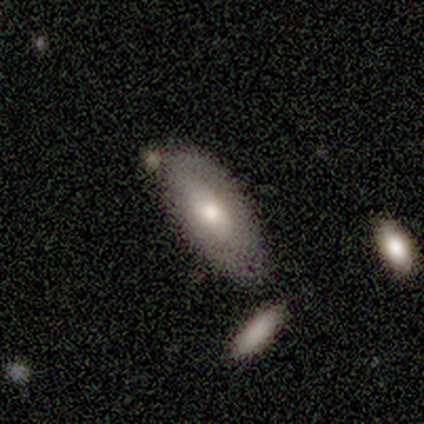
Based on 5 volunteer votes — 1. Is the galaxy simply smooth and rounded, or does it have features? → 60% smooth, 40% featured or disk, 0% star or artifact.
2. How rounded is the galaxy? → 67% in between, 33% cigar-shaped, 0% round.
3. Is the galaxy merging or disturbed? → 80% none, 20% minor disturbance, 0% major disturbance, 0% merger.